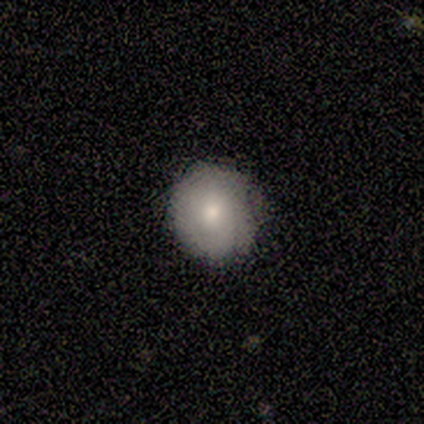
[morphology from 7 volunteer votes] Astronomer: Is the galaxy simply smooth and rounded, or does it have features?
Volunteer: smooth — 86%.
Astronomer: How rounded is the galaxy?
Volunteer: round — 83%.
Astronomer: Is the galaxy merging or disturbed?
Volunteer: none — 67%.